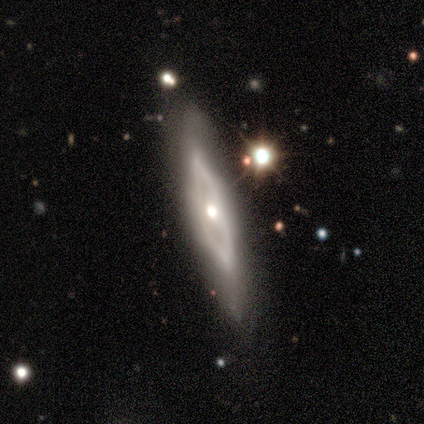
This appears to be a featured or disk galaxy (100%) viewed edge-on (50%, tied with no) with a rounded central bulge (100%). Merging: none (100%).